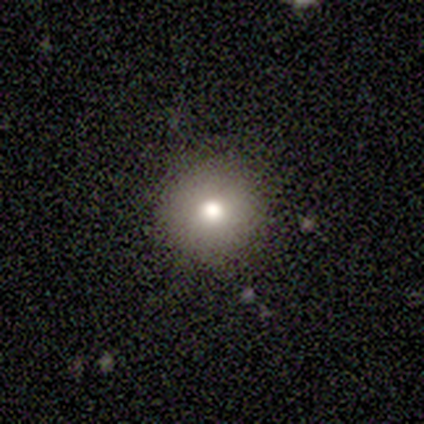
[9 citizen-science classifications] smooth_or_featured: smooth (p=0.78) [alt: star or artifact p=0.22]
how_rounded: round (p=1.00)
merging: none (p=1.00)